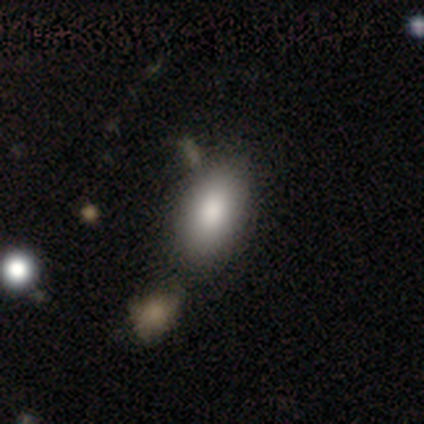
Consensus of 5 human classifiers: This appears to be a smooth galaxy with no disk features (100%) that is in between round and cigar-shaped (100%). Merging: none (100%).